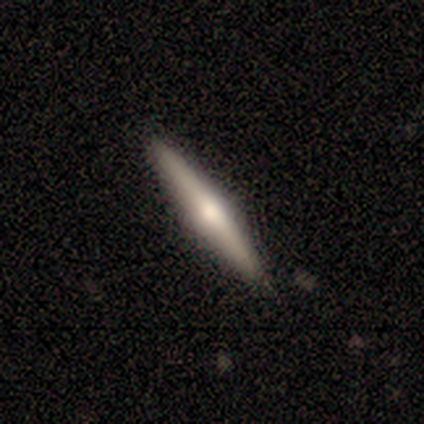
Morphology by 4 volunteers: smooth-or-featured: featured or disk: 75% | smooth: 25% | star or artifact: 0%
  disk-edge-on: yes: 100% | no: 0%
    edge-on-bulge: rounded: 100% | boxy: 0% | none: 0%
  merging: none: 100% | minor disturbance: 0% | major disturbance: 0% | merger: 0%